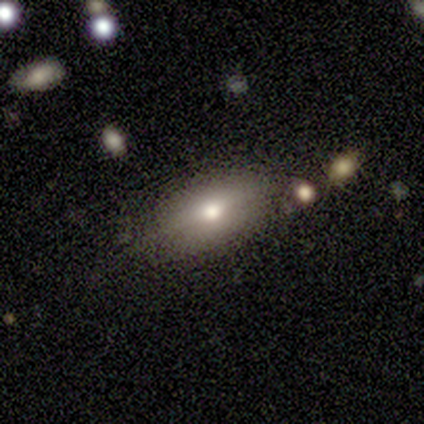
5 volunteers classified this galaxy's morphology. A smooth galaxy with no disk features (80%) that is in between round and cigar-shaped (100%). Merging: none (75%).